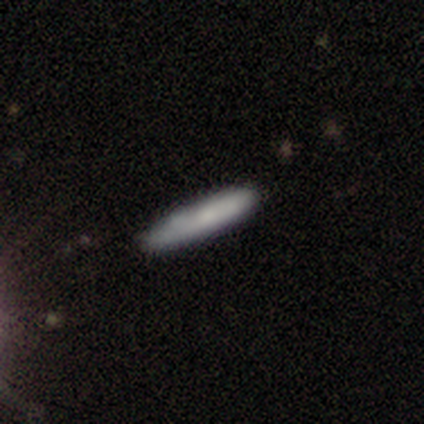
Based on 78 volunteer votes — smooth-or-featured: smooth: 71% | featured or disk: 23% | star or artifact: 6%
  how-rounded: cigar-shaped: 85% | in between: 15% | round: 0%
  merging: none: 41% | minor disturbance: 10% | merger: 3% | major disturbance: 0%